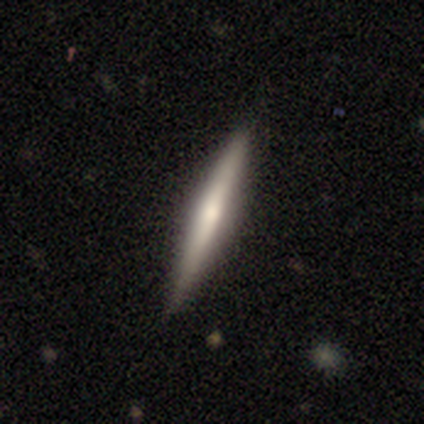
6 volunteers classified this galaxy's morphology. A featured or disk galaxy (50%) viewed edge-on (100%) with a rounded central bulge (100%).

Vote fractions:
- Smooth or featured? featured or disk: 50% / smooth: 33% / star or artifact: 17%
- Edge-on disk? yes: 100% / no: 0%
- Edge-on bulge? rounded: 100% / boxy: 0% / none: 0%
- Merging? none: 100% / minor disturbance: 0% / major disturbance: 0% / merger: 0%